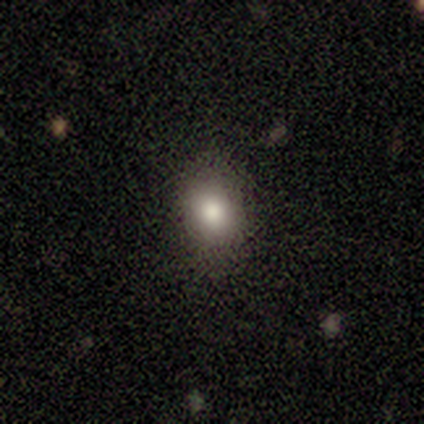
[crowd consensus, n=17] Smooth or featured?
  - smooth: 82% *
  - featured or disk: 12%
  - star or artifact: 6%
How rounded?
  - round: 50% * (tied)
  - in between: 50% * (tied)
  - cigar-shaped: 0%
Merging?
  - none: 88% *
  - minor disturbance: 12%
  - major disturbance: 0%
  - merger: 0%